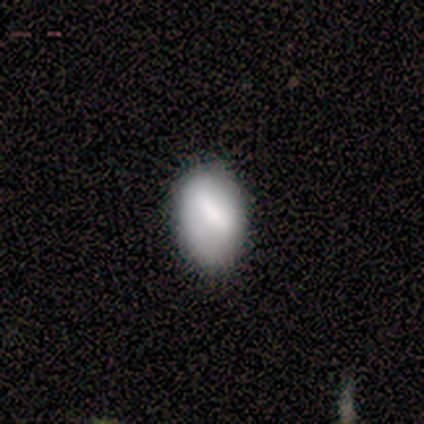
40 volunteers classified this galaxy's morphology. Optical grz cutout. It shows a smooth galaxy with no disk features (65%) that is in between round and cigar-shaped (81%). Merging: none (55%).